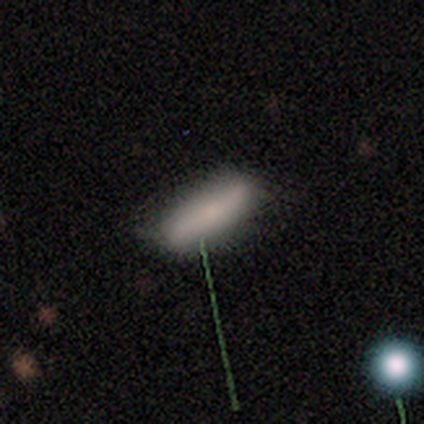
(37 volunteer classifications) Overall: smooth (62%; featured or disk 24%). How rounded: cigar-shaped (52%; in between 48%). Merging: none (72%).